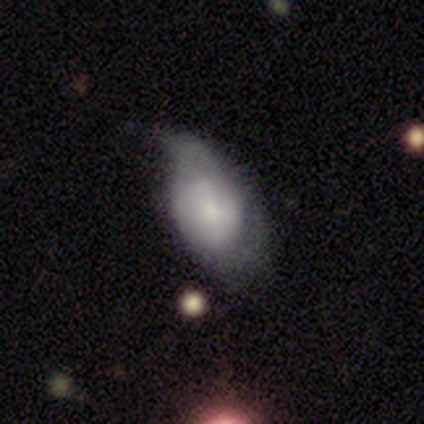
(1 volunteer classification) Smooth or featured?
  - featured or disk: 100% *
  - smooth: 0%
  - star or artifact: 0%
Edge-on disk?
  - no: 100% *
  - yes: 0%
Bar?
  - no: 100% *
  - strong: 0%
  - weak: 0%
Spiral arms?
  - no: 100% *
  - yes: 0%
Bulge size?
  - moderate: 100% *
  - dominant: 0%
  - large: 0%
  - small: 0%
  - none: 0%
Merging?
  - none: 100% *
  - minor disturbance: 0%
  - major disturbance: 0%
  - merger: 0%